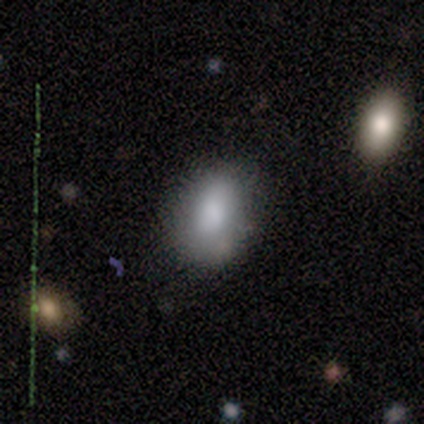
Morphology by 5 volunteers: Smooth or featured?
  - smooth: 100% *
  - featured or disk: 0%
  - star or artifact: 0%
How rounded?
  - in between: 60% *
  - round: 40%
  - cigar-shaped: 0%
Merging?
  - none: 80% *
  - minor disturbance: 20%
  - major disturbance: 0%
  - merger: 0%